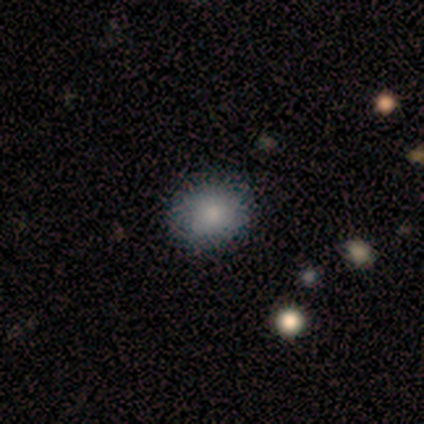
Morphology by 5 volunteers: Q: Smooth or featured?
A: smooth (100%)
Q: How rounded?
A: in between (60%); runner-up: round (40%)
Q: Merging?
A: none (100%)